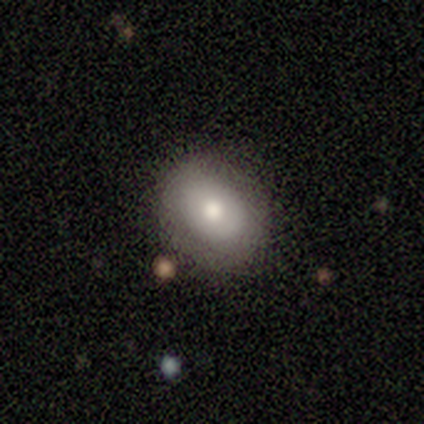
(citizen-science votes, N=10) smooth 70%, featured or disk 20%, star or artifact 10%. Down the decision tree: how rounded — round (71%); merging — none (100%).